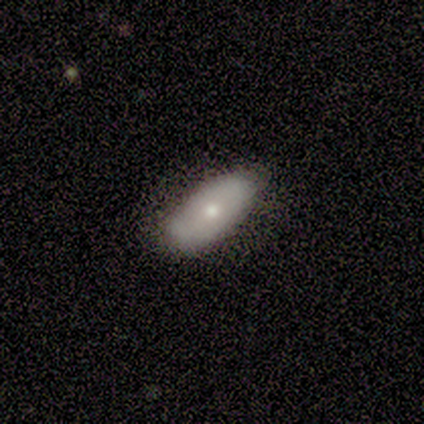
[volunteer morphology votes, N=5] smooth-or-featured: smooth: 80% | featured or disk: 20% | star or artifact: 0%
  how-rounded: in between: 100% | round: 0% | cigar-shaped: 0%
  merging: none: 60% | minor disturbance: 40% | major disturbance: 0% | merger: 0%